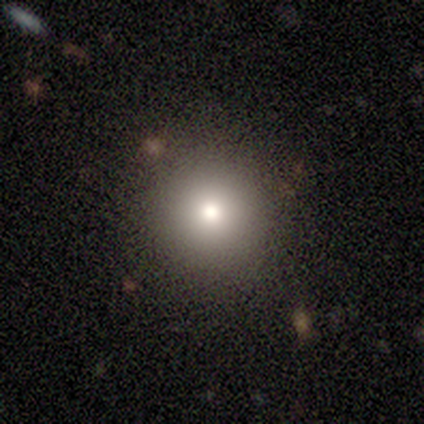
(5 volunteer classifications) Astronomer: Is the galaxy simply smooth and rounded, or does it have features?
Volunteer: smooth — 60% (runner-up: star or artifact, 40%).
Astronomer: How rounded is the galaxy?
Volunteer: round — 100%.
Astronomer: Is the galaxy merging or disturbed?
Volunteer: none — 100%.